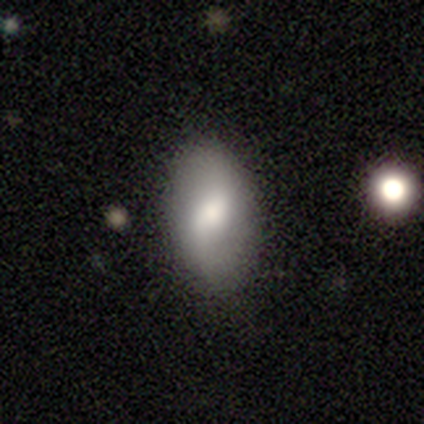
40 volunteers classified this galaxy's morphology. This is possibly a smooth galaxy (52%). How rounded: clearly in between (86%). Merging: clearly none (87%).